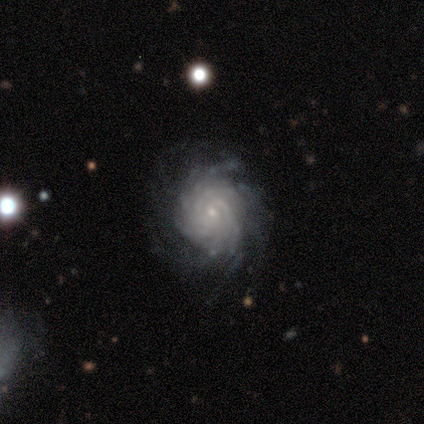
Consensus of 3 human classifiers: This appears to be a featured or disk galaxy (100%) with no bar (100%), tight (67%) spiral arms (100%) and a small central bulge (100%). Merging: none (100%).